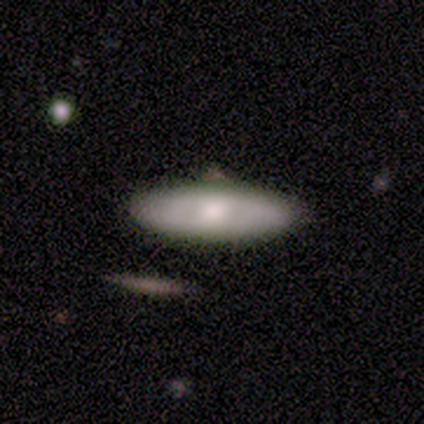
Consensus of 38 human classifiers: Overall: smooth (71%). How rounded: in between (52%; cigar-shaped 44%). Merging: none (86%).